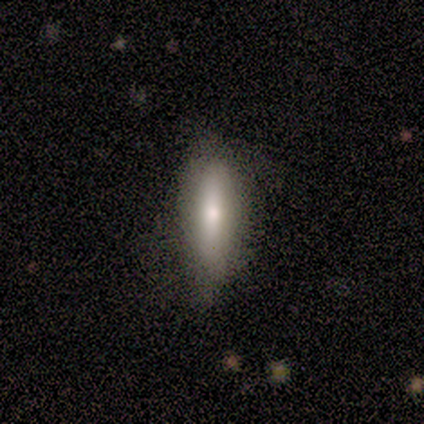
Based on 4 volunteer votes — Smooth or featured?
  - smooth: 75% *
  - star or artifact: 25%
  - featured or disk: 0%
How rounded?
  - cigar-shaped: 100% *
  - round: 0%
  - in between: 0%
Merging?
  - none: 67% *
  - major disturbance: 33%
  - minor disturbance: 0%
  - merger: 0%